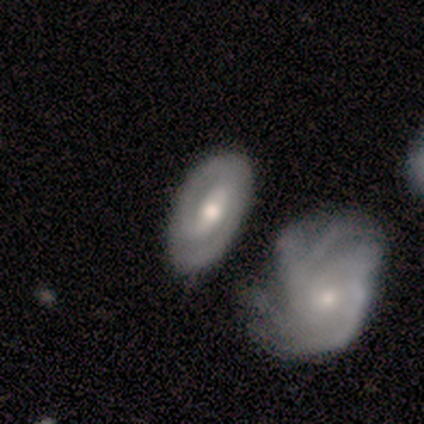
featured or disk 60%, smooth 20%, star or artifact 20%. Down the decision tree: edge-on disk — no (100%); bar — strong (67%); spiral arms — yes (100%); spiral arm count — 2 (67%); spiral winding — tight (33%, tied with medium and loose); bulge size — large (33%, tied with moderate and small); merging — none (75%).